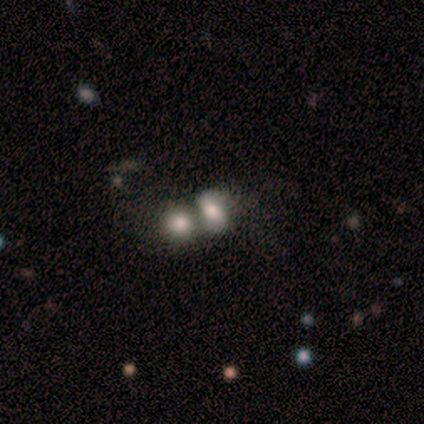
A smooth galaxy with no disk features (50%, tied with featured or disk) that is in between round and cigar-shaped (100%).

Vote fractions:
- Smooth or featured? smooth: 50% (tied) / featured or disk: 50% (tied) / star or artifact: 0%
- How rounded? in between: 100% / round: 0% / cigar-shaped: 0%
- Merging? merger: 100% / none: 0% / minor disturbance: 0% / major disturbance: 0%